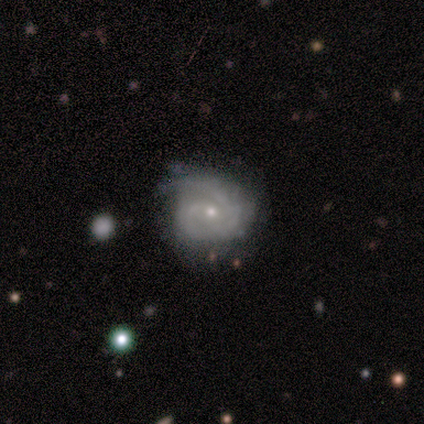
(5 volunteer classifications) A featured or disk galaxy (80%) with no bar (100%), 1 (25%, tied with 2, 3 and 4) medium (50%) spiral arms (100%) and a small central bulge (100%). Merging: none (60%).